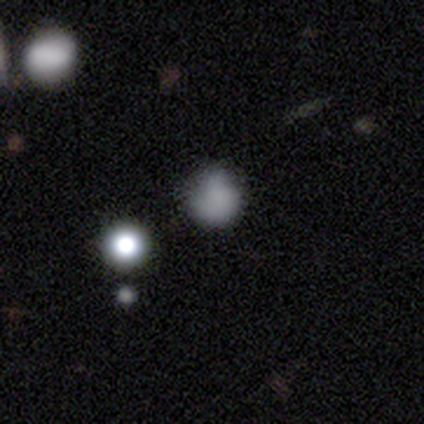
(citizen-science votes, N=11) Smooth or featured? 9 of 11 (82%) said smooth. How rounded? 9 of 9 (100%) said round. Merging? 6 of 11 (55%) said minor disturbance.